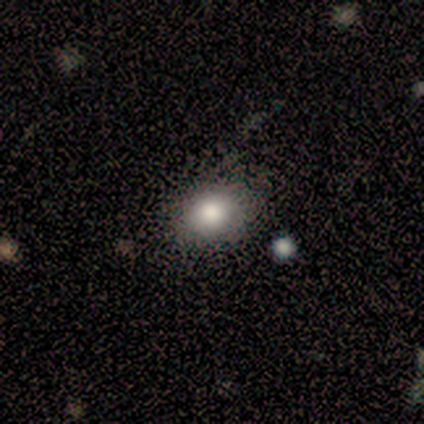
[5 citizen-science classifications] A smooth galaxy with no disk features (100%) that is in between round and cigar-shaped (60%). Merging: none (60%).